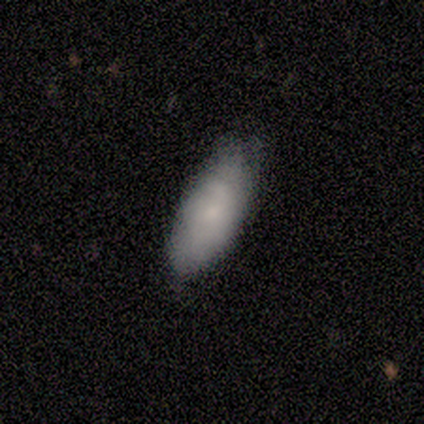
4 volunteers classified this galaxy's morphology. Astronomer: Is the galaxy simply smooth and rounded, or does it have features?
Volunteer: smooth — 75%.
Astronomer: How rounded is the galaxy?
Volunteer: in between — 100%.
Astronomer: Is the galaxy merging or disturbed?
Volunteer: none — 75%.